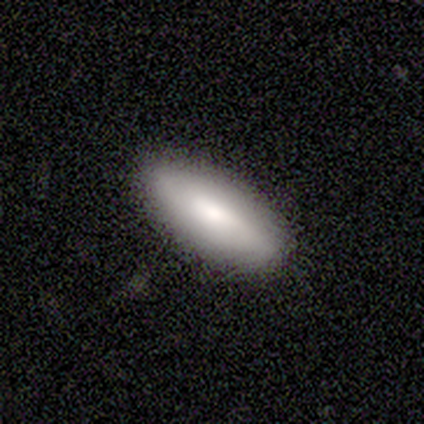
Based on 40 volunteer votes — Overall: smooth (78%). How rounded: in between (74%). Merging: none (97%).